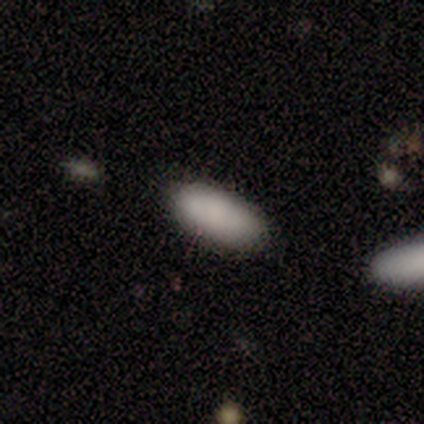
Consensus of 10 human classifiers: Volunteers were most divided on "merging": none: 78%, minor disturbance: 11%, merger: 11%, major disturbance: 0%. More confident: how rounded — in between (100%); smooth or featured — smooth (90%).